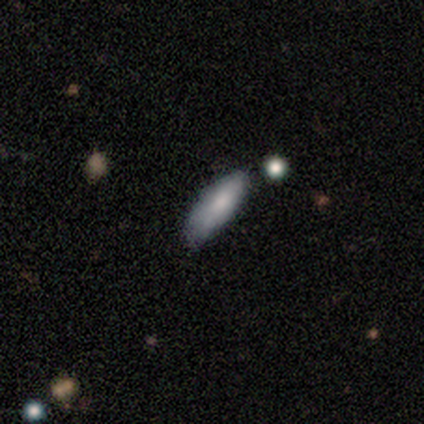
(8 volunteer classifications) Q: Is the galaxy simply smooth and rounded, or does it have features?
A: smooth — 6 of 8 (75%).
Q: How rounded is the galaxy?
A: in between — 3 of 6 (50%, tied with cigar-shaped).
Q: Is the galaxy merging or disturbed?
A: none — 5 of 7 (71%).